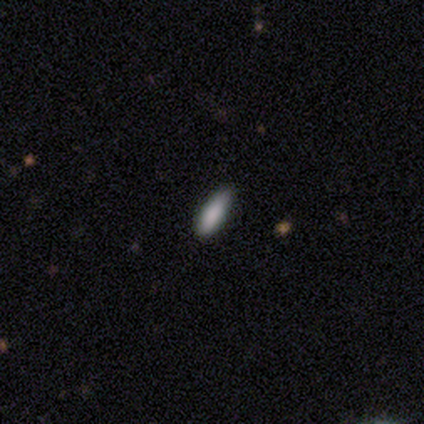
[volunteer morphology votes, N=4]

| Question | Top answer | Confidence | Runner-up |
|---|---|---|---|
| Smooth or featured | smooth | 100% | — |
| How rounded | in between | 50% | tied: cigar-shaped (50%) |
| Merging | none | 100% | — |